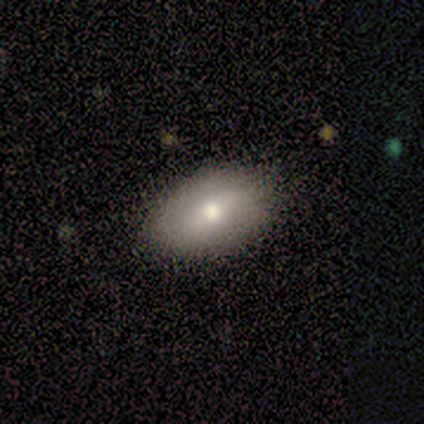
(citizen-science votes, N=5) Smooth or featured: smooth — 100%
How rounded: in between — 80% (round — 20%)
Merging: minor disturbance — 60% (none — 40%)